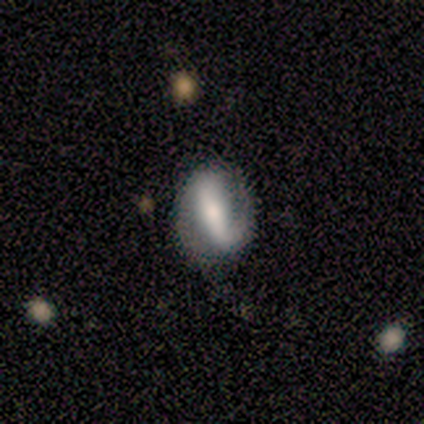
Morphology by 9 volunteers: Smooth or featured? featured or disk (100%)
Edge-on disk? no (100%)
Bar? strong (89%)
Spiral arms? yes (78%)
Spiral winding? loose (57%)
Spiral arm count? 2 (57%)
Bulge size? moderate (78%)
Merging? none (67%)